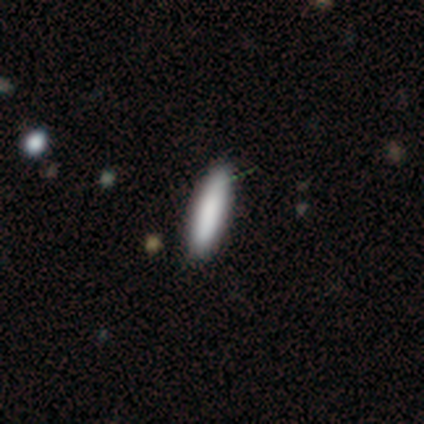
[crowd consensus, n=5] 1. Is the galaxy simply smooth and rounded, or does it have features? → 80% smooth, 20% star or artifact, 0% featured or disk.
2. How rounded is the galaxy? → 75% cigar-shaped, 25% in between, 0% round.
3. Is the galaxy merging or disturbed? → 100% none, 0% minor disturbance, 0% major disturbance, 0% merger.